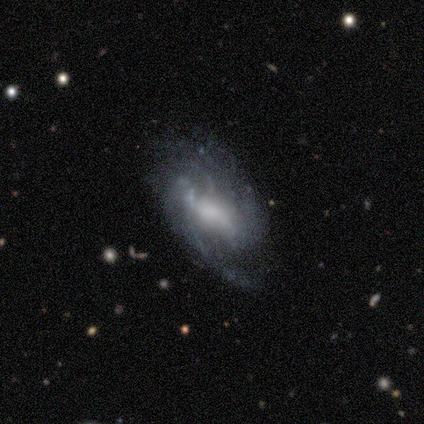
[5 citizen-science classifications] Overall: featured or disk (80%). Edge-on disk: no (100%). Bar: weak (50%, tied with no). Spiral arms: yes (100%). Spiral arm count: 2 (50%; more than 4 25%). Spiral winding: tight (50%; medium 25%). Bulge size: moderate (50%; large 25%). Merging: none (60%; minor disturbance 20%).